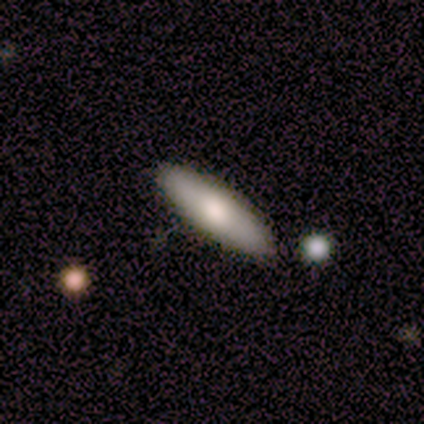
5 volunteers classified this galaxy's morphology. A smooth galaxy with no disk features (60%) that is in between round and cigar-shaped (67%).

Vote fractions:
- Smooth or featured? smooth: 60% / featured or disk: 40% / star or artifact: 0%
- How rounded? in between: 67% / cigar-shaped: 33% / round: 0%
- Merging? none: 80% / minor disturbance: 20% / major disturbance: 0% / merger: 0%